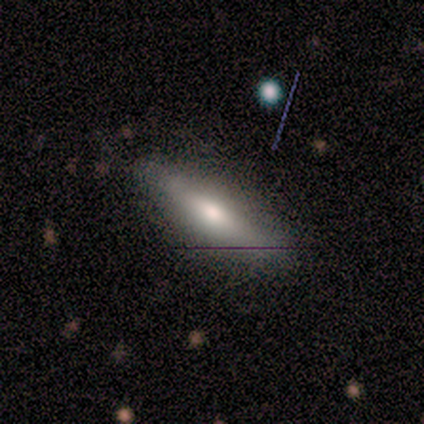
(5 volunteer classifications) Smooth or featured? smooth (40%, tied with featured or disk)
How rounded? cigar-shaped (100%)
Merging? none (75%)